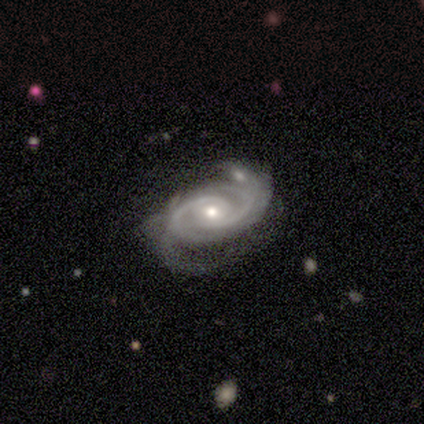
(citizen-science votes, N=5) Smooth or featured: featured or disk — 100%
Edge-on disk: no — 60% (yes — 40%)
Bar: strong — 33% (tied with weak — 33%; no — 33%)
Spiral arms: yes — 100%
Spiral winding: tight — 67% (medium — 33%)
Spiral arm count: 2 — 33% (tied with 3 — 33%; 4 — 33%)
Bulge size: moderate — 67% (small — 33%)
Merging: none — 80% (major disturbance — 20%)